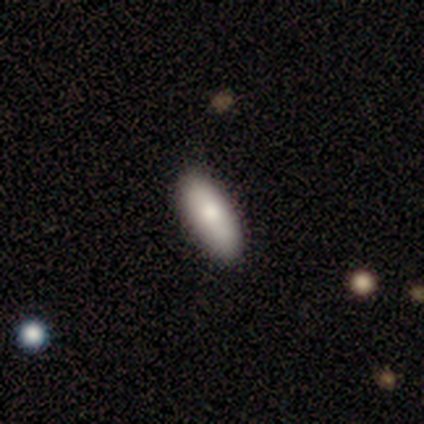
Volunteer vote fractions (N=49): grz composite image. It shows a smooth galaxy with no disk features (92%) that is in between round and cigar-shaped (84%). Merging: none (88%).